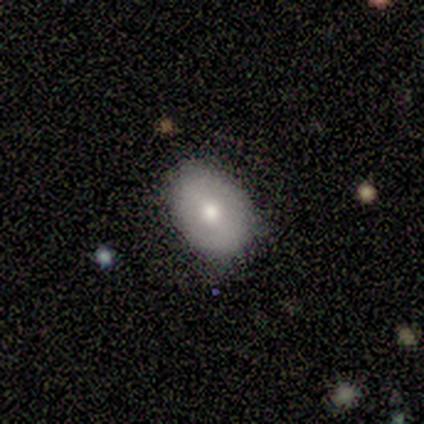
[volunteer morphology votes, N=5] Overall: smooth (60%; featured or disk 40%). How rounded: in between (67%; round 33%). Merging: none (80%).